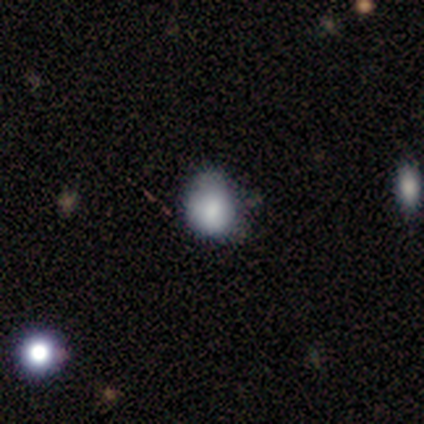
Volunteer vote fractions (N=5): Q: Smooth or featured?
A: smooth (80%); runner-up: star or artifact (20%)
Q: How rounded?
A: in between (75%); runner-up: round (25%)
Q: Merging?
A: none (50%); runner-up: major disturbance (25%)